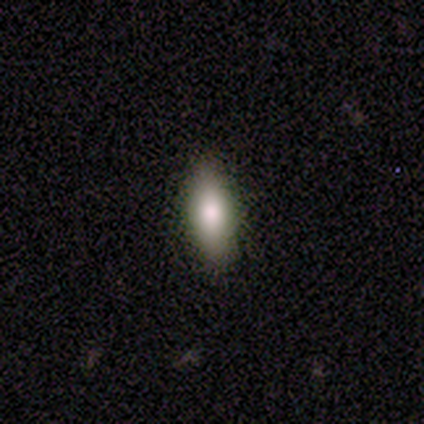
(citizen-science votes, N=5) Smooth or featured?
  - smooth: 100% *
  - featured or disk: 0%
  - star or artifact: 0%
How rounded?
  - in between: 80% *
  - cigar-shaped: 20%
  - round: 0%
Merging?
  - none: 100% *
  - minor disturbance: 0%
  - major disturbance: 0%
  - merger: 0%